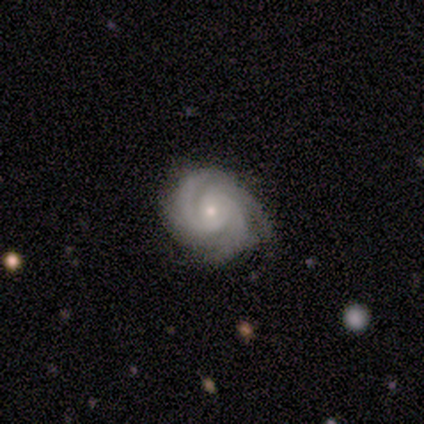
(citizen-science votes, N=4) This is clearly a featured or disk galaxy (100%). It is clearly not viewed edge-on (100%). Bar: likely no (75%). Spiral arm pattern: clearly yes (100%). Spiral arm count: possibly 3 (50%). Spiral winding: possibly tight (50%, tied with medium). Central bulge: possibly moderate (50%, tied with small). Merging: likely none (75%).